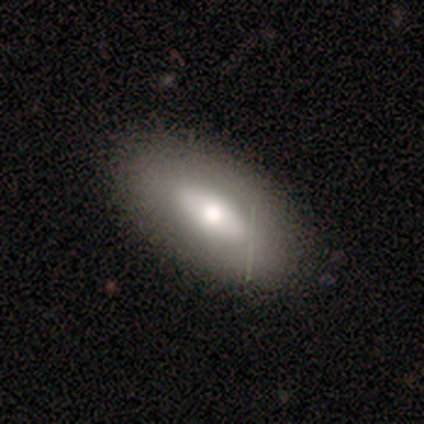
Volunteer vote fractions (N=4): smooth_or_featured: smooth (p=0.50) [tied with: featured or disk p=0.50]
how_rounded: in between (p=1.00)
merging: none (p=1.00)